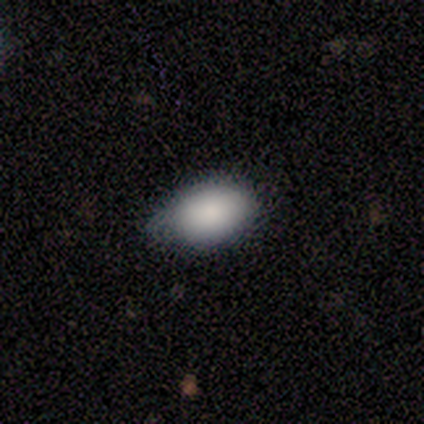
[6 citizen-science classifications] A smooth galaxy with no disk features (100%) that is in between round and cigar-shaped (83%).

Vote fractions:
- Smooth or featured? smooth: 100% / featured or disk: 0% / star or artifact: 0%
- How rounded? in between: 83% / round: 17% / cigar-shaped: 0%
- Merging? none: 50% / minor disturbance: 33% / major disturbance: 17% / merger: 0%